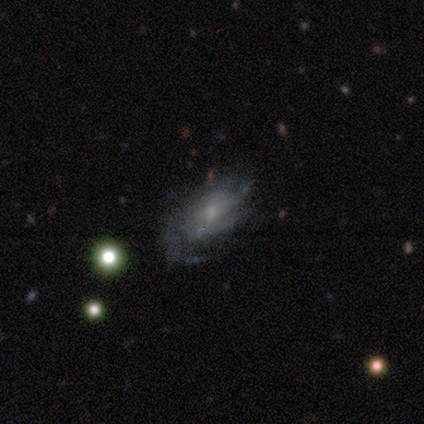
A featured or disk galaxy (75%) with no bar (67%), 4 (100%) medium (67%) spiral arms (100%) and a moderate central bulge (67%).

Vote fractions:
- Smooth or featured? featured or disk: 75% / smooth: 25% / star or artifact: 0%
- Edge-on disk? no: 100% / yes: 0%
- Bar? no: 67% / weak: 33% / strong: 0%
- Spiral arms? yes: 100% / no: 0%
- Spiral winding? medium: 67% / tight: 33% / loose: 0%
- Spiral arm count? 4: 100% / 1: 0% / 2: 0% / 3: 0% / more than 4: 0% / can't tell: 0%
- Bulge size? moderate: 67% / small: 33% / dominant: 0% / large: 0% / none: 0%
- Merging? none: 50% / minor disturbance: 25% / major disturbance: 25% / merger: 0%